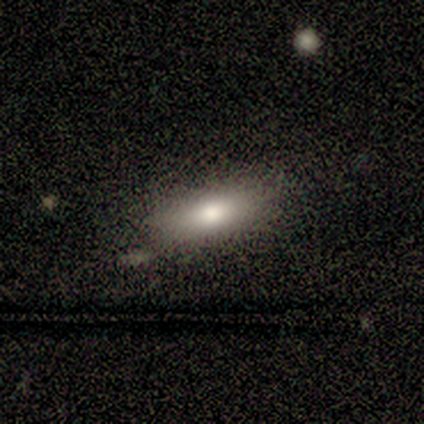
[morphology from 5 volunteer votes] smooth-or-featured: smooth: 80% | featured or disk: 20% | star or artifact: 0%
  how-rounded: in between: 50% (tied) | cigar-shaped: 50% (tied) | round: 0%
  merging: none: 80% | major disturbance: 20% | minor disturbance: 0% | merger: 0%